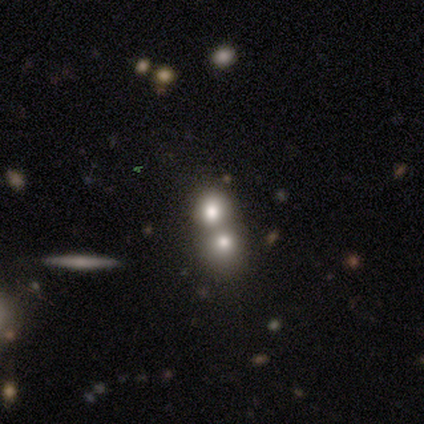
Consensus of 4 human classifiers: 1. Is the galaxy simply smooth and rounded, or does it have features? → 75% smooth, 25% featured or disk, 0% star or artifact.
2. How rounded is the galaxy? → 100% round, 0% in between, 0% cigar-shaped.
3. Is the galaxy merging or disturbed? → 100% merger, 0% none, 0% minor disturbance, 0% major disturbance.